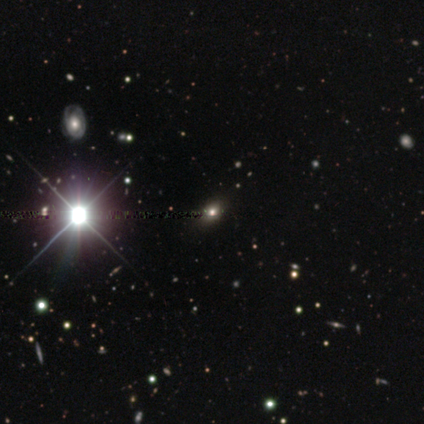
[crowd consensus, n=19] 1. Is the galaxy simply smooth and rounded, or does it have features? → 42% star or artifact, 32% smooth, 26% featured or disk.